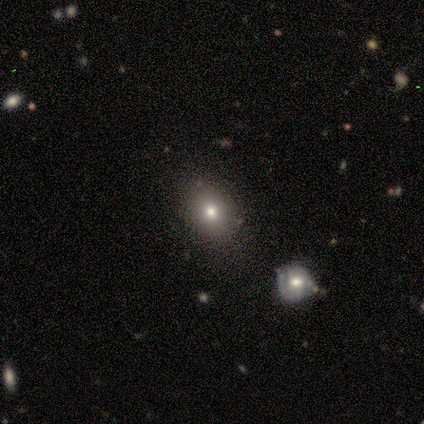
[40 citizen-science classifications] Smooth or featured?
  - smooth: 70% *
  - featured or disk: 18%
  - star or artifact: 12%
How rounded?
  - round: 64% *
  - in between: 36%
  - cigar-shaped: 0%
Merging?
  - none: 86% *
  - minor disturbance: 11%
  - merger: 3%
  - major disturbance: 0%